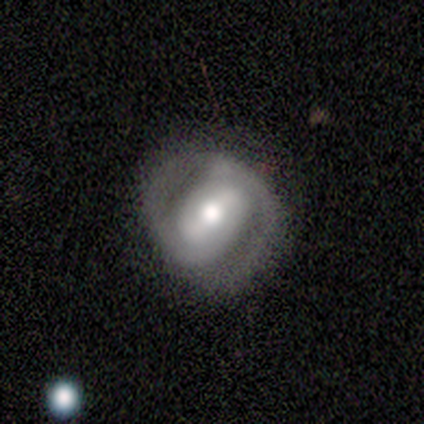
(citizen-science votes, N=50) This appears to be a featured or disk galaxy (86%) with a strong bar (56%), 2 (82%) tight (74%) spiral arms (91%) and a moderate central bulge (56%). Merging: none (73%).